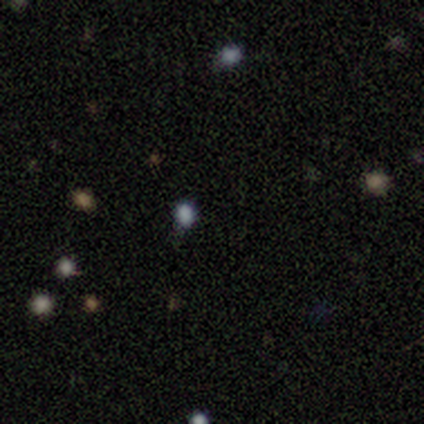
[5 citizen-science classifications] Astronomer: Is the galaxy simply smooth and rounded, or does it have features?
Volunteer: smooth — 80%.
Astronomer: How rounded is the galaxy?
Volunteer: in between — 50%.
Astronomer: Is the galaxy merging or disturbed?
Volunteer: none — 100%.